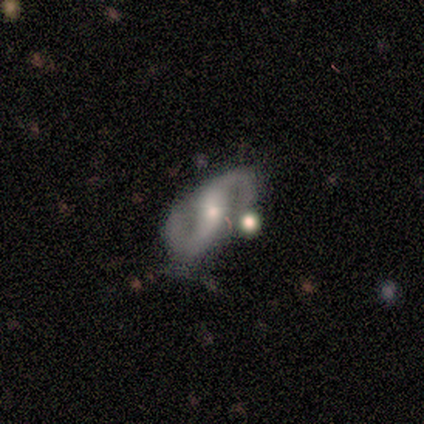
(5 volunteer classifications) Q: Smooth or featured?
A: featured or disk (60%); runner-up: smooth (40%)
Q: Edge-on disk?
A: no (100%)
Q: Bar?
A: strong (67%); runner-up: no (33%)
Q: Spiral arms?
A: yes (100%)
Q: Spiral winding?
A: loose (67%); runner-up: medium (33%)
Q: Spiral arm count?
A: 2 (100%)
Q: Bulge size?
A: small (67%); runner-up: moderate (33%)
Q: Merging?
A: none (60%); runner-up: major disturbance (20%)